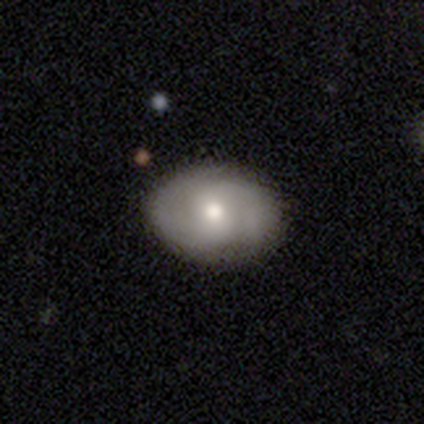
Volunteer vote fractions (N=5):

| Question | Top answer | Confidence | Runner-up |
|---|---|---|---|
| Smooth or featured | smooth | 80% | featured or disk (20%) |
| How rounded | in between | 100% | — |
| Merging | none | 100% | — |